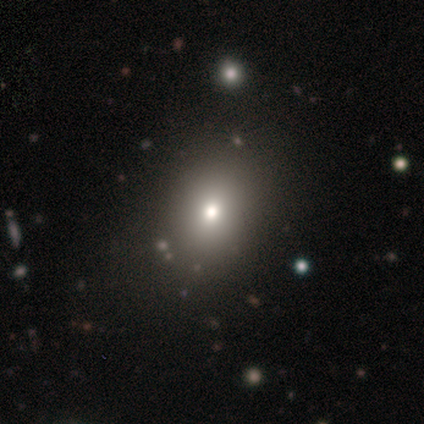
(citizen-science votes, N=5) smooth 60%, featured or disk 20%, star or artifact 20%. Down the decision tree: how rounded — in between (67%); merging — none (50%).